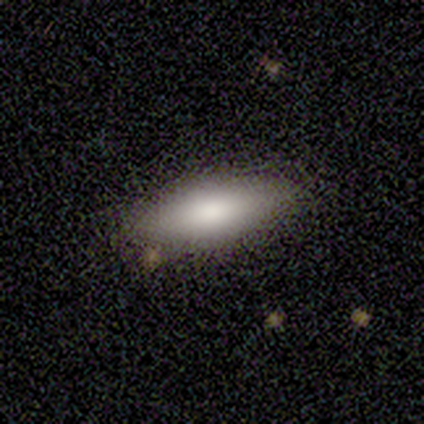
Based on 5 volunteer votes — Smooth or featured? 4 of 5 (80%) said smooth. How rounded? 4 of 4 (100%) said in between. Merging? 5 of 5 (100%) said none.